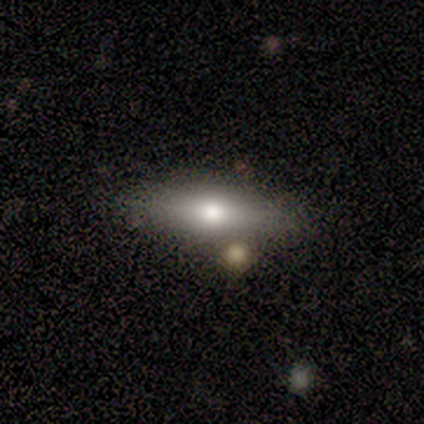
A featured or disk galaxy (60%) viewed edge-on (100%) with a rounded central bulge (100%).

Vote fractions:
- Smooth or featured? featured or disk: 60% / smooth: 20% / star or artifact: 20%
- Edge-on disk? yes: 100% / no: 0%
- Edge-on bulge? rounded: 100% / boxy: 0% / none: 0%
- Merging? none: 75% / minor disturbance: 25% / major disturbance: 0% / merger: 0%